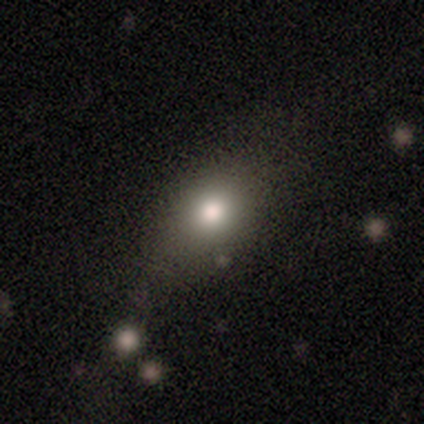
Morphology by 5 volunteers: smooth-or-featured: smooth: 60% | featured or disk: 40% | star or artifact: 0%
  how-rounded: in between: 100% | round: 0% | cigar-shaped: 0%
  merging: minor disturbance: 60% | none: 40% | major disturbance: 0% | merger: 0%